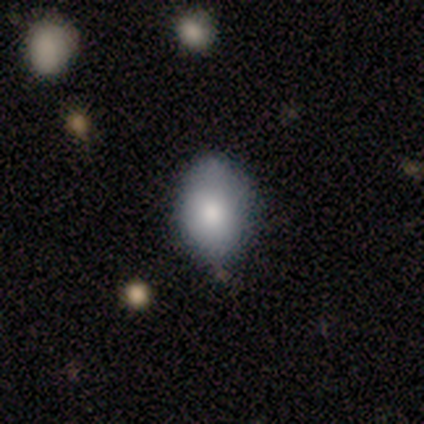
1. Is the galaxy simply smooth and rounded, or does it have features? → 75% smooth, 25% featured or disk, 0% star or artifact.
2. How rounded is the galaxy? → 100% in between, 0% round, 0% cigar-shaped.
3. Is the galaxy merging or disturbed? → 75% minor disturbance, 25% major disturbance, 0% none, 0% merger.